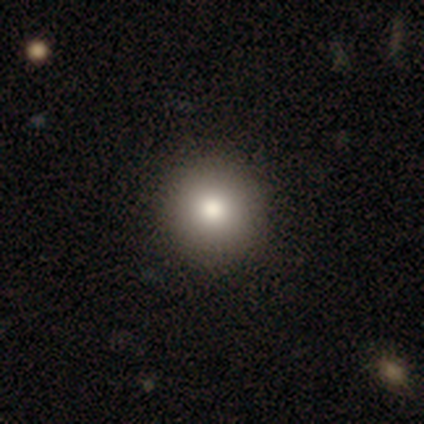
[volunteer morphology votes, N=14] Smooth or featured?
  - smooth: 64% *
  - star or artifact: 21%
  - featured or disk: 14%
How rounded?
  - round: 100% *
  - in between: 0%
  - cigar-shaped: 0%
Merging?
  - none: 82% *
  - minor disturbance: 18%
  - major disturbance: 0%
  - merger: 0%